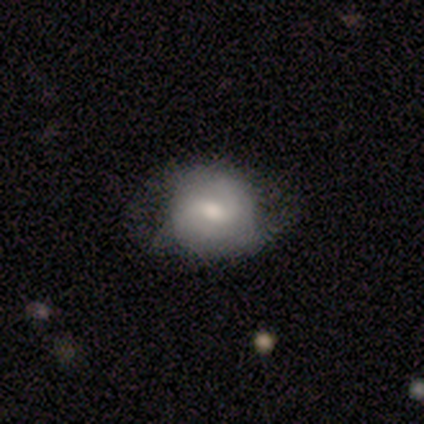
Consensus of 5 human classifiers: featured or disk 60%, smooth 20%, star or artifact 20%. Down the decision tree: edge-on disk — no (100%); bar — weak (67%); spiral arms — yes (67%); spiral arm count — 2 (100%); spiral winding — tight (50%, tied with medium); bulge size — moderate (100%); merging — none (75%).